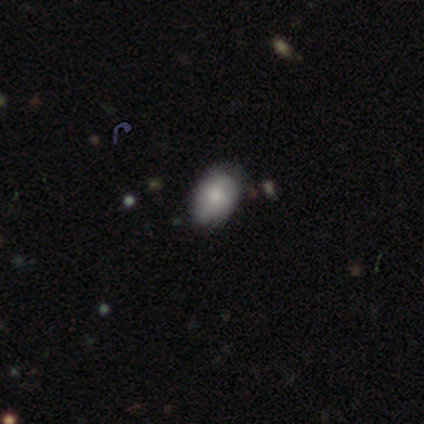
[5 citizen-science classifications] This is clearly a smooth galaxy (100%). How rounded: clearly in between (80%). Merging: likely none (60%).